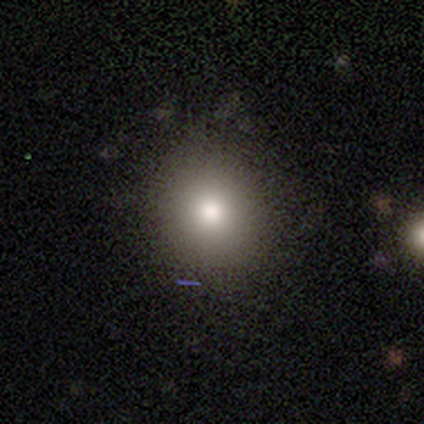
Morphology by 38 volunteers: This appears to be a smooth galaxy with no disk features (68%) that is round (77%). Merging: none (87%).